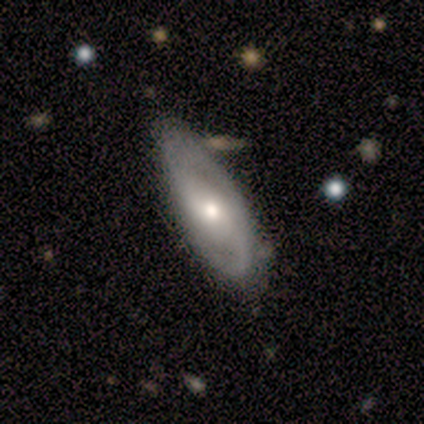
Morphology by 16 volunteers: Overall: featured or disk (88%). Edge-on disk: no (100%). Bar: no (50%; weak 36%). Spiral arms: yes (93%). Spiral arm count: 2 (92%). Spiral winding: medium (46%; loose 31%). Bulge size: moderate (79%). Merging: none (87%).